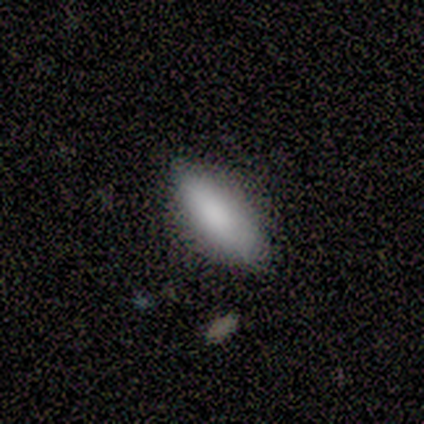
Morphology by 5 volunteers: smooth_or_featured: smooth (p=0.80) [alt: star or artifact p=0.20]
how_rounded: in between (p=0.50) [tied with: cigar-shaped p=0.50]
merging: none (p=1.00)